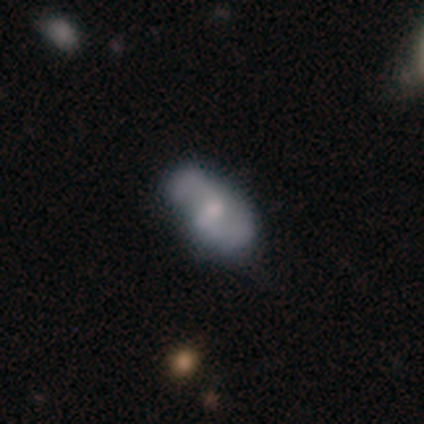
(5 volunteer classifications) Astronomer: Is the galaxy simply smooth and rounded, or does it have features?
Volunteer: smooth — 80%.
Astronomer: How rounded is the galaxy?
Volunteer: in between — 100%.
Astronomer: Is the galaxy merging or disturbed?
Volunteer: none — 80%.